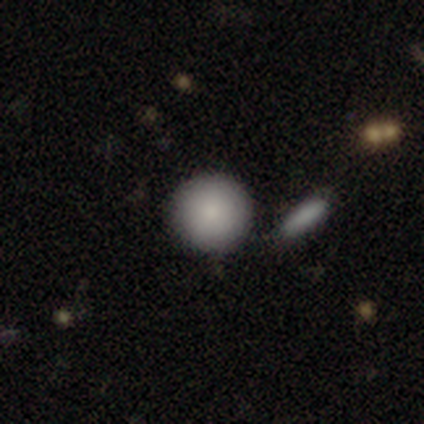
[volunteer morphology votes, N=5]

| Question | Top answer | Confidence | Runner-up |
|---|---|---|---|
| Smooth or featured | smooth | 100% | — |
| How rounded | round | 100% | — |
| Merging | none | 80% | merger (20%) |